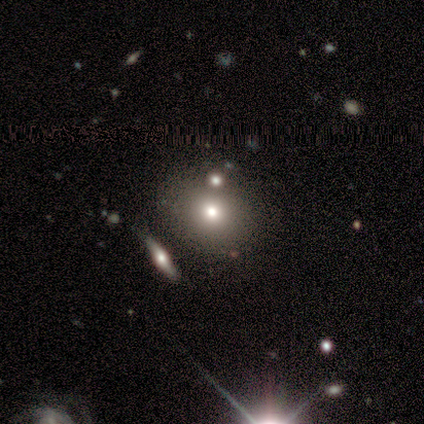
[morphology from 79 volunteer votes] Overall: smooth (76%). How rounded: round (70%; in between 30%). Merging: none (38%; merger 25%).